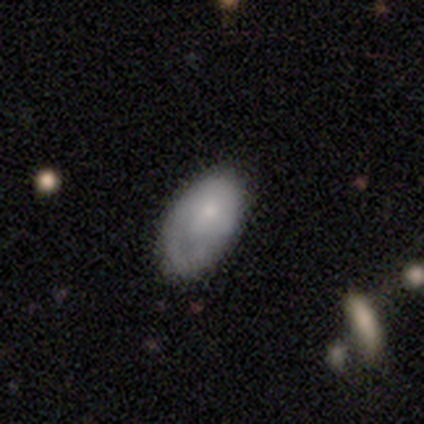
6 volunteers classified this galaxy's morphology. Smooth or featured?
  - featured or disk: 67% *
  - smooth: 33%
  - star or artifact: 0%
Edge-on disk?
  - no: 100% *
  - yes: 0%
Bar?
  - no: 75% *
  - weak: 25%
  - strong: 0%
Spiral arms?
  - no: 75% *
  - yes: 25%
Bulge size?
  - small: 75% *
  - none: 25%
  - dominant: 0%
  - large: 0%
  - moderate: 0%
Merging?
  - none: 50% * (tied)
  - minor disturbance: 50% * (tied)
  - major disturbance: 0%
  - merger: 0%